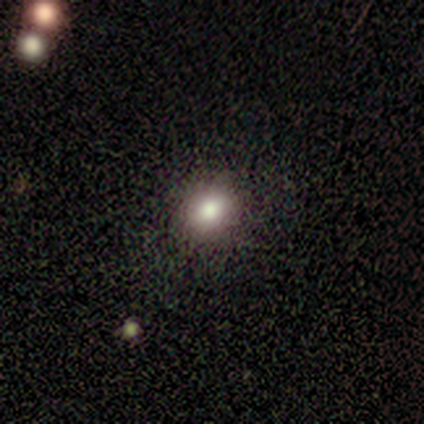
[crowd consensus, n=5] smooth 100%, featured or disk 0%, star or artifact 0%. Down the decision tree: how rounded — in between (60%); merging — none (80%).